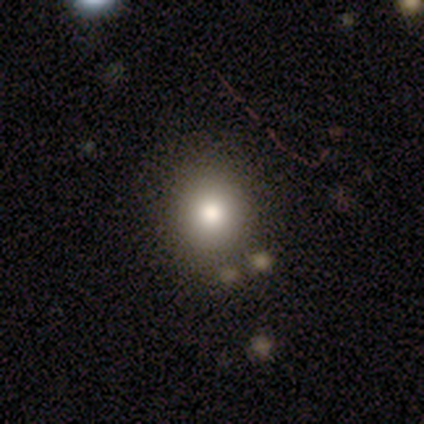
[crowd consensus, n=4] Smooth or featured: smooth — 75% (featured or disk — 25%)
How rounded: round — 100%
Merging: none — 75% (merger — 25%)